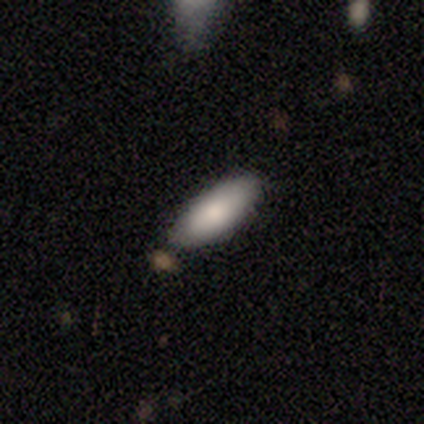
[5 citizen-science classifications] This is clearly a smooth galaxy (100%). How rounded: clearly in between (80%). Merging: likely minor disturbance (60%).